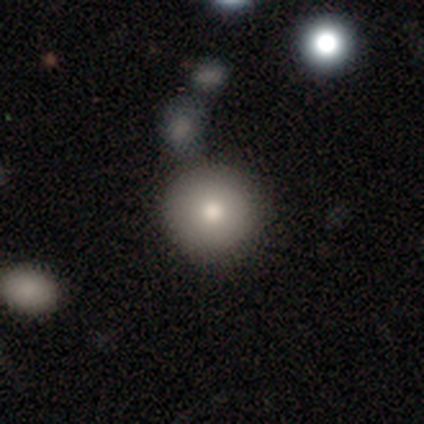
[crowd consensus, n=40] Smooth or featured? 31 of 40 (78%) said smooth. How rounded? 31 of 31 (100%) said round. Merging? 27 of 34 (79%) said none.